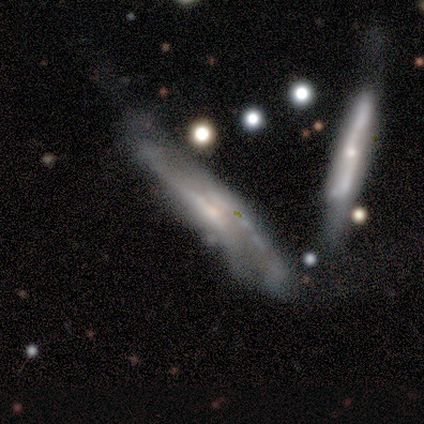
Smooth or featured?
  - featured or disk: 100% *
  - smooth: 0%
  - star or artifact: 0%
Edge-on disk?
  - yes: 100% *
  - no: 0%
Edge-on bulge?
  - boxy: 100% *
  - none: 0%
  - rounded: 0%
Merging?
  - none: 100% *
  - minor disturbance: 0%
  - major disturbance: 0%
  - merger: 0%